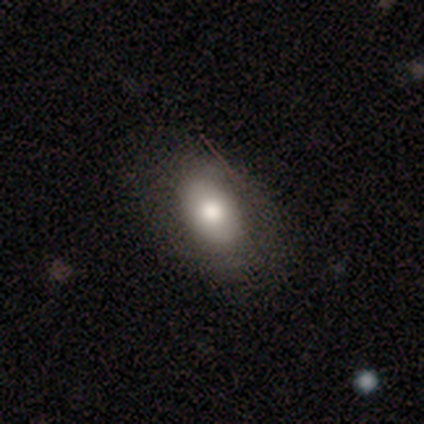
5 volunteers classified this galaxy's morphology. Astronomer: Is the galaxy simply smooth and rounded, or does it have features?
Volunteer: smooth — 80%.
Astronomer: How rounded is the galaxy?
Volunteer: in between — 100%.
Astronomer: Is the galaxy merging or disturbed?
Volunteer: none — 75%.